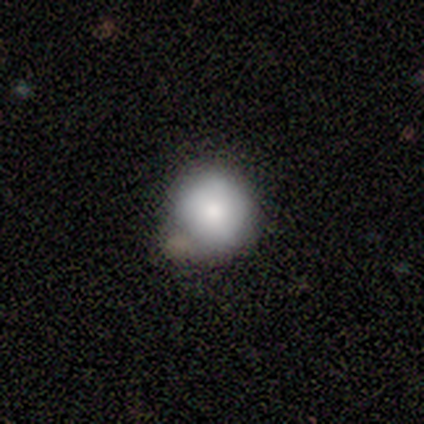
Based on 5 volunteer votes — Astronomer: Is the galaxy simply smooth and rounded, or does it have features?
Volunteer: smooth — 80%.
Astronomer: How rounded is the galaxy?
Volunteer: round — 100%.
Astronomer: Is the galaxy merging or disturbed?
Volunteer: none — 60%.